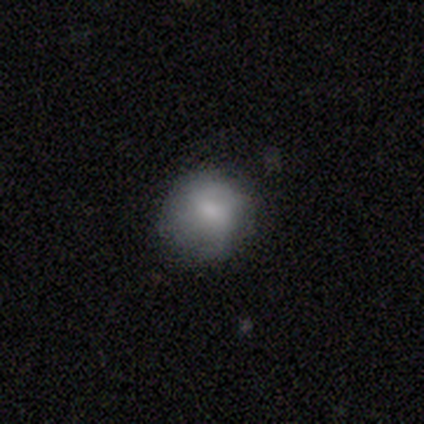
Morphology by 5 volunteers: This is clearly a smooth galaxy (100%). How rounded: clearly round (100%). Merging: clearly none (100%).